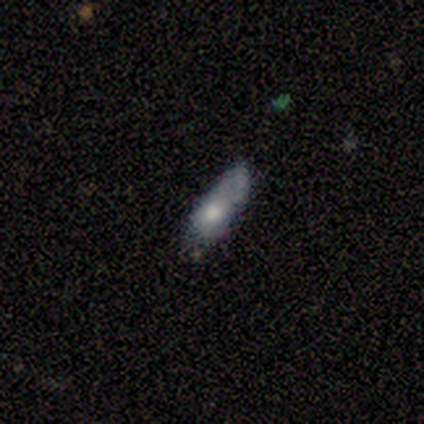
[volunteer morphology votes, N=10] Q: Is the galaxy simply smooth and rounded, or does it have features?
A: smooth — 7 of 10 (70%).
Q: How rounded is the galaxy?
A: in between — 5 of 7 (71%).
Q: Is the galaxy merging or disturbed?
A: none — 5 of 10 (50%).